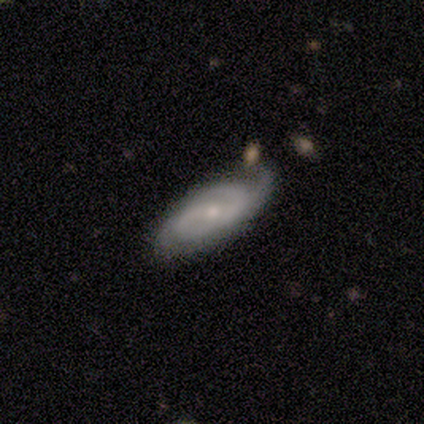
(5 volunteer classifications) smooth-or-featured: featured or disk: 80% | smooth: 20% | star or artifact: 0%
  disk-edge-on: no: 100% | yes: 0%
    bar: weak: 50% (tied) | no: 50% (tied) | strong: 0%
    has-spiral-arms: yes: 100% | no: 0%
      spiral-winding: tight: 50% (tied) | medium: 50% (tied) | loose: 0%
      spiral-arm-count: 2: 50% | 3: 25% | can't tell: 25% | 1: 0% | 4: 0% | more than 4: 0%
    bulge-size: small: 75% | moderate: 25% | dominant: 0% | large: 0% | none: 0%
  merging: none: 80% | merger: 20% | minor disturbance: 0% | major disturbance: 0%